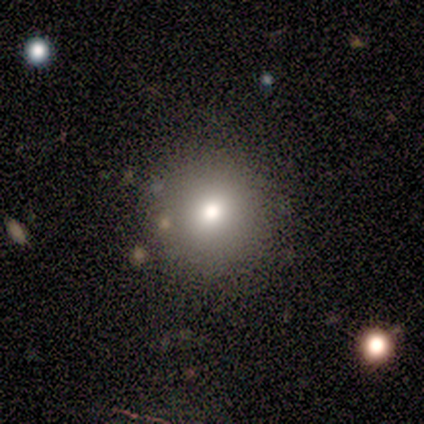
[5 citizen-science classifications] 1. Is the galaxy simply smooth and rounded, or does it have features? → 60% smooth, 20% featured or disk, 20% star or artifact.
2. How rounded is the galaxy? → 100% round, 0% in between, 0% cigar-shaped.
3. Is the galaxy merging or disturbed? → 100% none, 0% minor disturbance, 0% major disturbance, 0% merger.